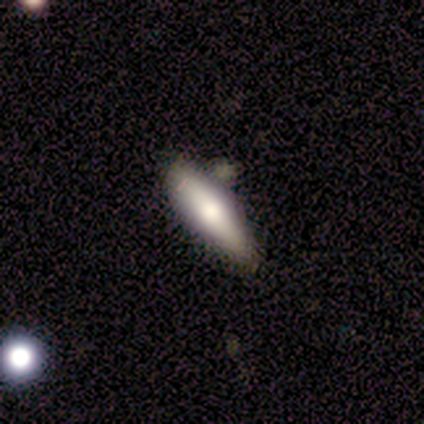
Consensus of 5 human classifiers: Overall: smooth (80%). How rounded: in between (50%, tied with cigar-shaped). Merging: none (60%; minor disturbance 40%).